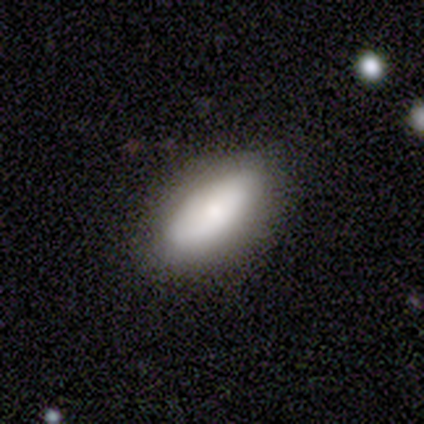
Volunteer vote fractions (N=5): Smooth or featured: smooth — 100%
How rounded: in between — 80% (cigar-shaped — 20%)
Merging: none — 100%